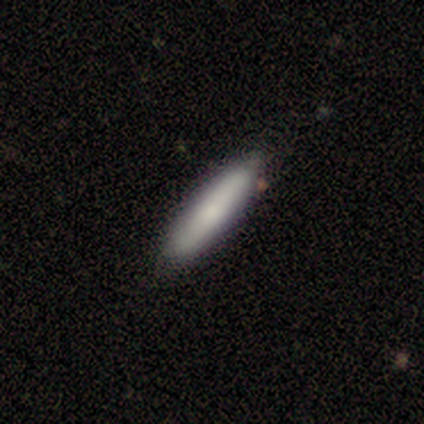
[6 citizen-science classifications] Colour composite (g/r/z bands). It shows a smooth galaxy with no disk features (67%) that is cigar-shaped (100%). Merging: none (100%).